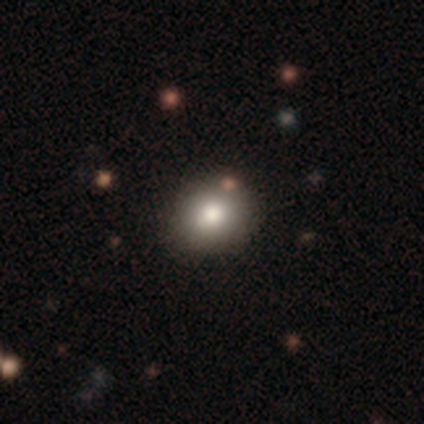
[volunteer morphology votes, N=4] Q: Smooth or featured?
A: smooth (50%); tied with: featured or disk (50%)
Q: How rounded?
A: round (100%)
Q: Merging?
A: none (75%); runner-up: minor disturbance (25%)